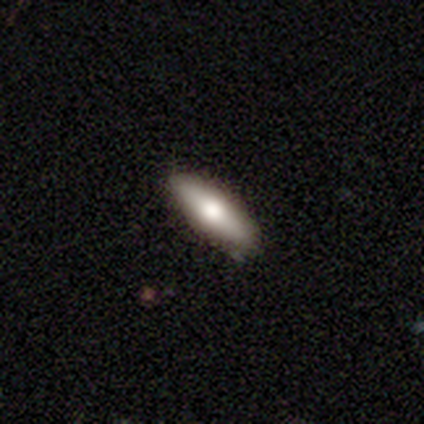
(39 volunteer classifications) Volunteers were most divided on "how rounded": in between: 58%, cigar-shaped: 42%, round: 0%. More confident: merging — none (89%); smooth or featured — smooth (62%).